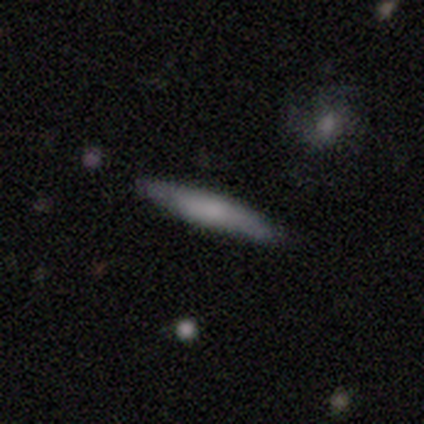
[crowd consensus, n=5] This appears to be a smooth galaxy with no disk features (80%) that is cigar-shaped (100%). Merging: none (100%).